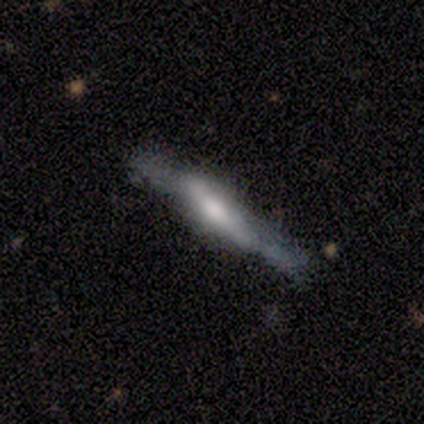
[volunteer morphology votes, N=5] smooth_or_featured: featured or disk (p=0.60) [alt: smooth p=0.20]
disk_edge_on: yes (p=1.00)
edge_on_bulge: rounded (p=1.00)
merging: none (p=0.50) [alt: minor disturbance p=0.25]